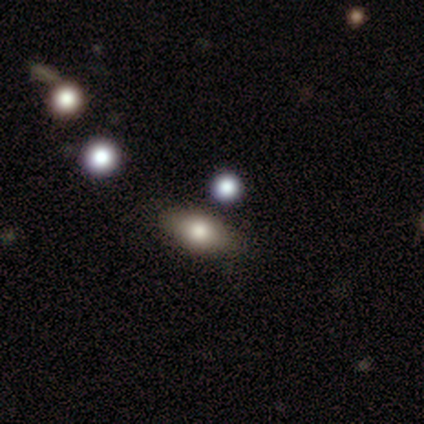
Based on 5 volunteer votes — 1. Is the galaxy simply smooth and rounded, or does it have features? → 80% smooth, 20% star or artifact, 0% featured or disk.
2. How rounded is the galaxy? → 100% in between, 0% round, 0% cigar-shaped.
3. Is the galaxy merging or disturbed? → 100% none, 0% minor disturbance, 0% major disturbance, 0% merger.